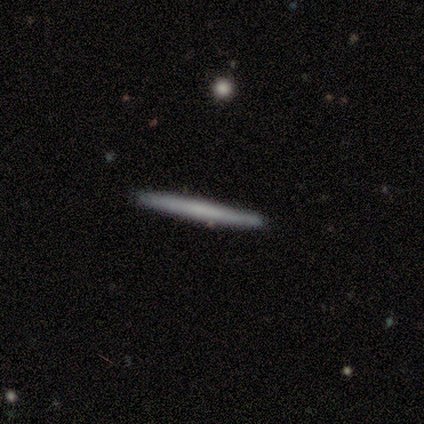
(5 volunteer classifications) Overall: featured or disk (60%; smooth 40%). Edge-on disk: yes (100%). Edge-on bulge: none (100%). Merging: none (100%).